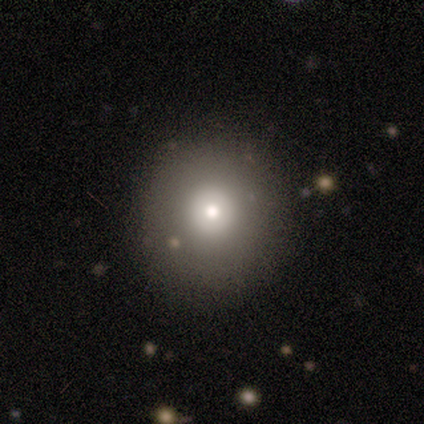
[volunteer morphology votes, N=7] This is likely a smooth galaxy (71%). How rounded: clearly round (100%). Merging: clearly none (86%).